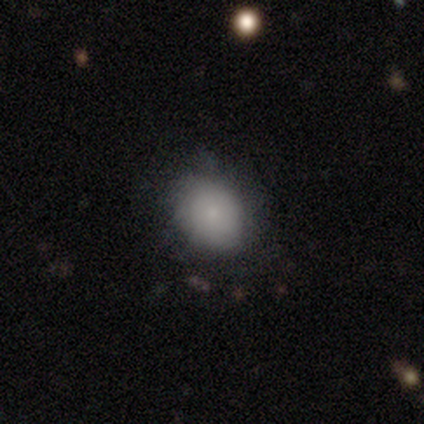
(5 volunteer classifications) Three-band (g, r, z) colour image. It shows a smooth galaxy with no disk features (40%, tied with featured or disk) that is round (50%, tied with in between). Merging: none (100%).